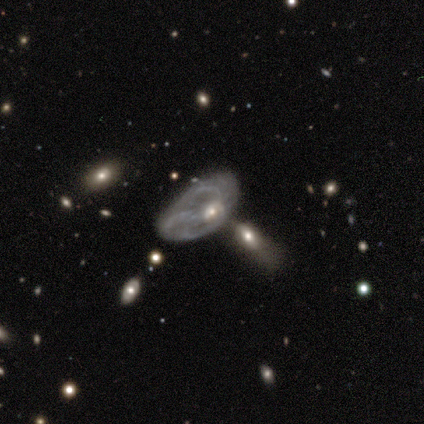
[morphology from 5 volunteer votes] Smooth or featured? featured or disk (60%)
Edge-on disk? no (100%)
Bar? no (67%)
Spiral arms? yes (67%)
Spiral winding? medium (50%, tied with loose)
Spiral arm count? 3 (50%, tied with can't tell)
Bulge size? small (67%)
Merging? minor disturbance (40%, tied with major disturbance)